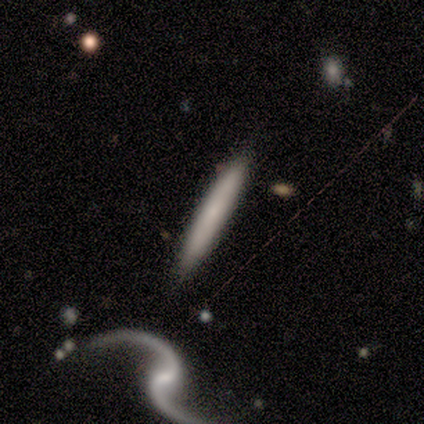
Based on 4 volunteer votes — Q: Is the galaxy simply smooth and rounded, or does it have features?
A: smooth — 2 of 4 (50%, tied with featured or disk).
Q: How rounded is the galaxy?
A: cigar-shaped — 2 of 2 (100%).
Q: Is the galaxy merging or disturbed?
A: none — 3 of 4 (75%).